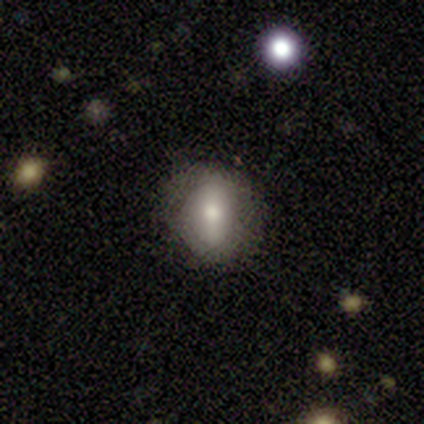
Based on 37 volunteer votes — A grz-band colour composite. It shows a smooth galaxy with no disk features (68%) that is round (52%). Merging: none (76%).